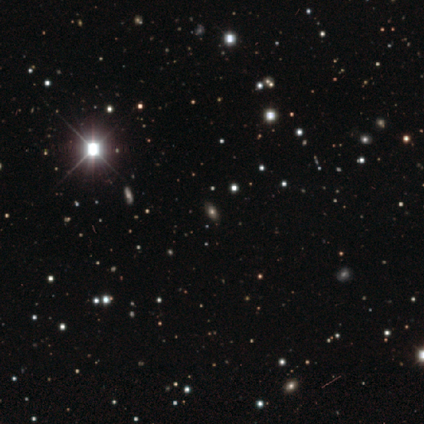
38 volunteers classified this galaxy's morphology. smooth-or-featured: star or artifact: 68% | smooth: 26% | featured or disk: 5%